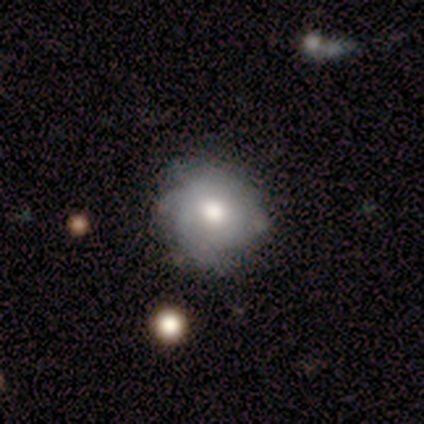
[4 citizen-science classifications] Q: Smooth or featured?
A: smooth (100%)
Q: How rounded?
A: round (100%)
Q: Merging?
A: none (100%)